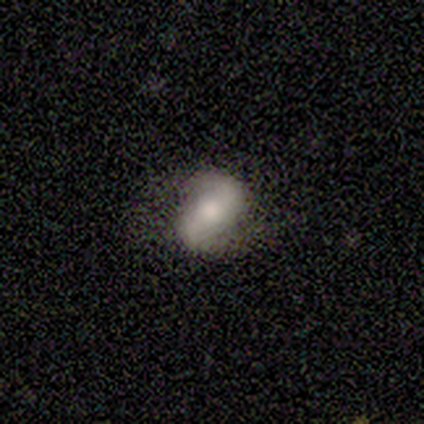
Volunteers were most divided on "smooth or featured": smooth: 60%, featured or disk: 40%, star or artifact: 0%. More confident: merging — none (80%); how rounded — in between (67%).